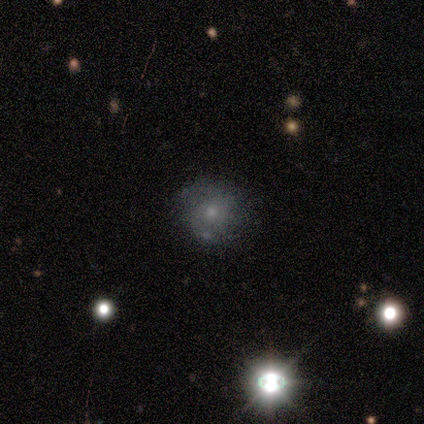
Smooth or featured? 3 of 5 (60%) said smooth. How rounded? 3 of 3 (100%) said round. Merging? 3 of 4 (75%) said none.